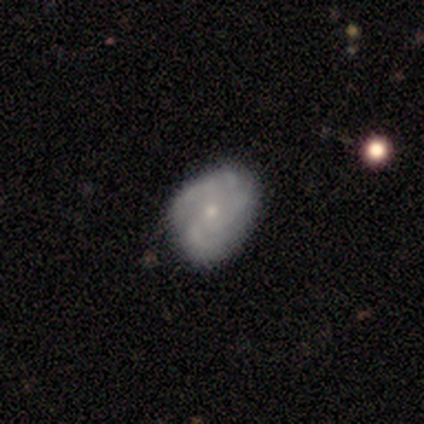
This appears to be a featured or disk galaxy (73%) with no bar (79%), 3 (52%) tight (48%) spiral arms (93%) and a small central bulge (59%). Merging: none (68%).